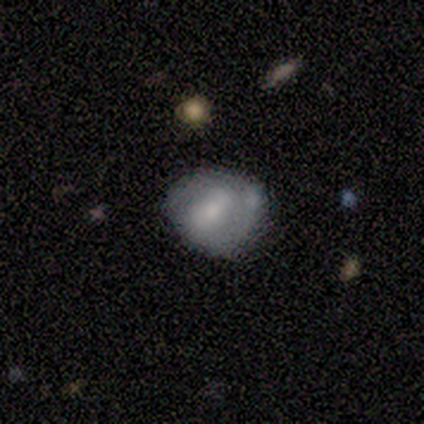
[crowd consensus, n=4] Smooth or featured?
  - featured or disk: 75% *
  - smooth: 25%
  - star or artifact: 0%
Edge-on disk?
  - no: 100% *
  - yes: 0%
Bar?
  - weak: 100% *
  - strong: 0%
  - no: 0%
Spiral arms?
  - no: 67% *
  - yes: 33%
Bulge size?
  - small: 67% *
  - moderate: 33%
  - dominant: 0%
  - large: 0%
  - none: 0%
Merging?
  - none: 50% * (tied)
  - minor disturbance: 50% * (tied)
  - major disturbance: 0%
  - merger: 0%